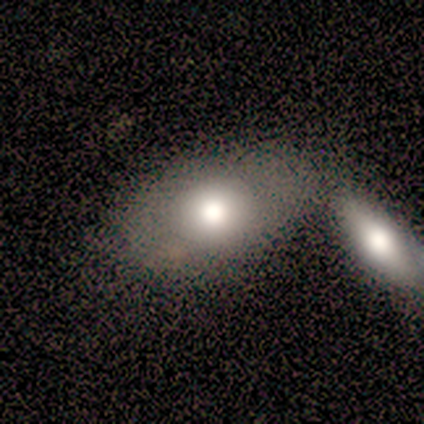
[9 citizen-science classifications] Smooth or featured?
  - smooth: 89% *
  - featured or disk: 11%
  - star or artifact: 0%
How rounded?
  - in between: 88% *
  - round: 12%
  - cigar-shaped: 0%
Merging?
  - none: 44% *
  - merger: 33%
  - minor disturbance: 22%
  - major disturbance: 0%